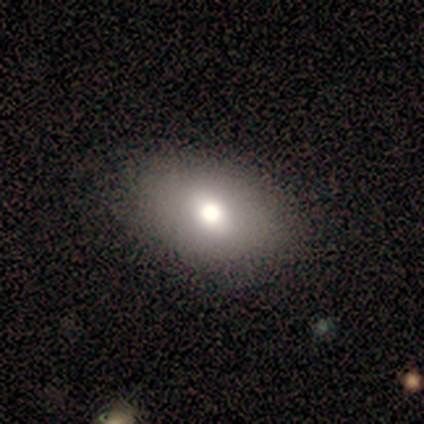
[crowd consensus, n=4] Smooth or featured? smooth (75%)
How rounded? in between (100%)
Merging? none (100%)